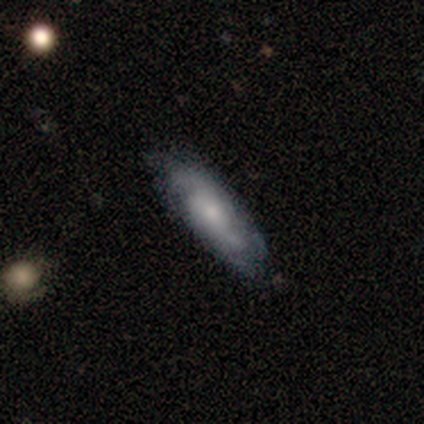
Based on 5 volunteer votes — This appears to be a smooth galaxy with no disk features (60%) that is cigar-shaped (100%). Merging: none (100%).